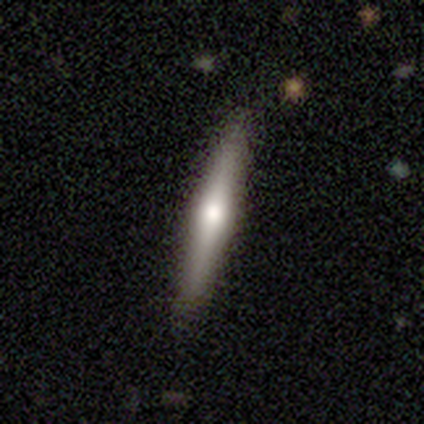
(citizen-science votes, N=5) smooth-or-featured: featured or disk: 80% | smooth: 20% | star or artifact: 0%
  disk-edge-on: yes: 100% | no: 0%
    edge-on-bulge: rounded: 100% | boxy: 0% | none: 0%
  merging: none: 100% | minor disturbance: 0% | major disturbance: 0% | merger: 0%